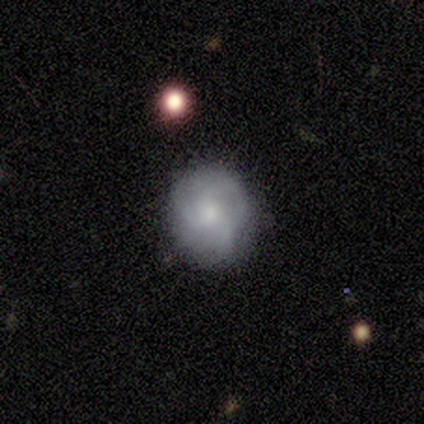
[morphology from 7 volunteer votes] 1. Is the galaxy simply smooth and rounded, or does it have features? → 57% smooth, 43% featured or disk, 0% star or artifact.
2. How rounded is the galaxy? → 50% round (tied), 50% in between (tied), 0% cigar-shaped.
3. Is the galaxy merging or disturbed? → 86% none, 14% minor disturbance, 0% major disturbance, 0% merger.